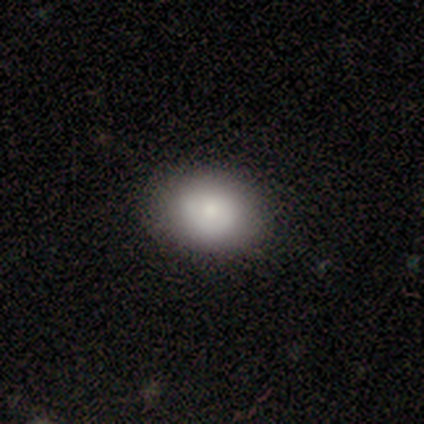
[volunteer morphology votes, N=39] Overall: smooth (74%). How rounded: in between (59%; round 41%). Merging: none (92%).